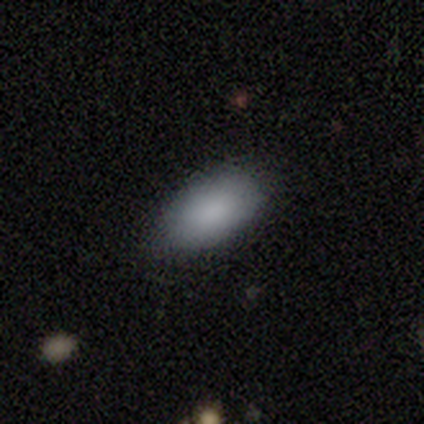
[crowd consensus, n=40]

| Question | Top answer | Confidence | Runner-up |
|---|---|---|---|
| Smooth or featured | smooth | 90% | featured or disk (10%) |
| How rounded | in between | 97% | cigar-shaped (3%) |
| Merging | none | 82% | minor disturbance (15%) |